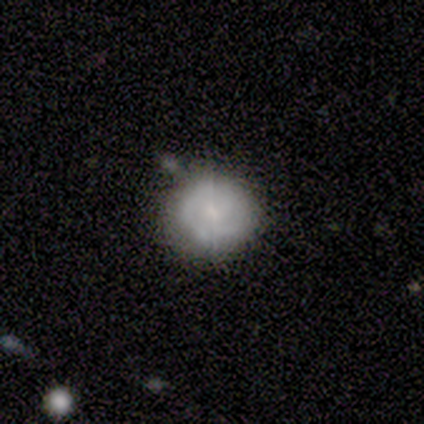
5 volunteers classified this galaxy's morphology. Smooth or featured? 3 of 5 (60%) said featured or disk. Edge-on disk? 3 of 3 (100%) said no. Bar? 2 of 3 (67%) said weak. Spiral arms? 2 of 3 (67%) said yes. Spiral winding? 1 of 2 (50%, tied with loose) said tight. Spiral arm count? 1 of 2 (50%, tied with 2) said 1. Bulge size? 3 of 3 (100%) said small. Merging? 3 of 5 (60%) said none.